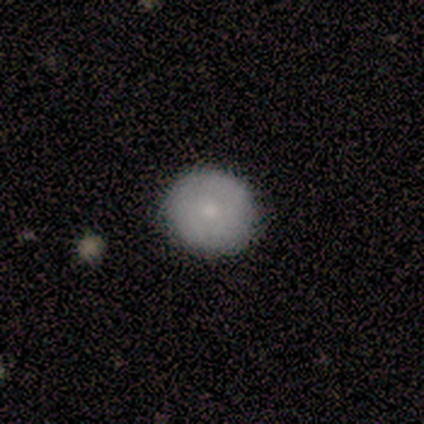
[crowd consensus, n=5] smooth-or-featured: smooth: 80% | featured or disk: 20% | star or artifact: 0%
  how-rounded: round: 100% | in between: 0% | cigar-shaped: 0%
  merging: none: 100% | minor disturbance: 0% | major disturbance: 0% | merger: 0%